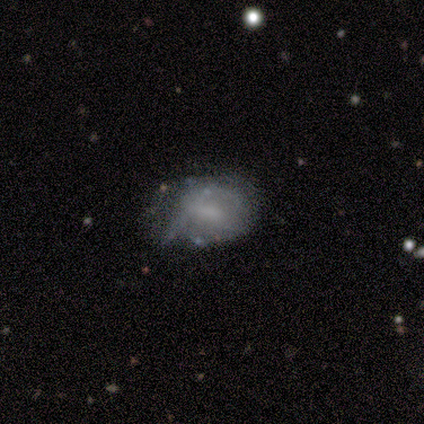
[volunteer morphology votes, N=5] Smooth or featured?
  - smooth: 40% * (tied)
  - featured or disk: 40% * (tied)
  - star or artifact: 20%
How rounded?
  - round: 50% * (tied)
  - in between: 50% * (tied)
  - cigar-shaped: 0%
Merging?
  - none: 50% * (tied)
  - major disturbance: 50% * (tied)
  - minor disturbance: 0%
  - merger: 0%